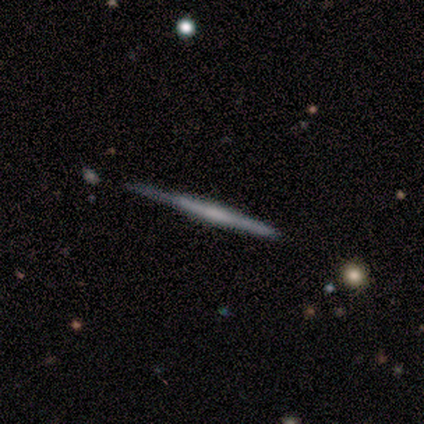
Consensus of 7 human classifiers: smooth_or_featured: featured or disk (p=0.86) [alt: smooth p=0.14]
disk_edge_on: yes (p=1.00)
edge_on_bulge: none (p=0.50) [alt: rounded p=0.33]
merging: none (p=0.71) [alt: minor disturbance p=0.29]